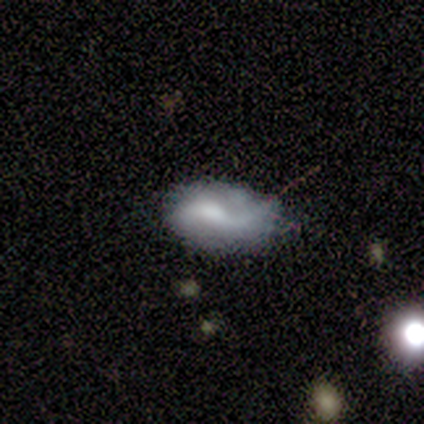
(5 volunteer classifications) Smooth or featured? smooth (60%)
How rounded? in between (100%)
Merging? none (40%)